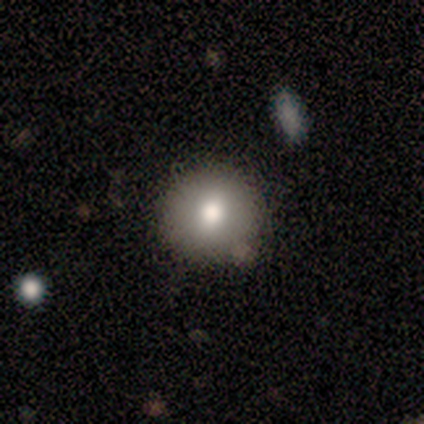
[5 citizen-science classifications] Smooth or featured: smooth — 80% (star or artifact — 20%)
How rounded: round — 100%
Merging: none — 50% (tied with minor disturbance — 50%)